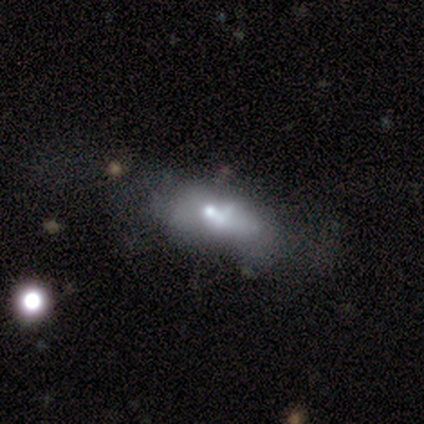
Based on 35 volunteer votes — Smooth or featured: featured or disk — 49% (smooth — 31%)
Edge-on disk: no — 82% (yes — 18%)
Bar: no — 93% (weak — 7%)
Spiral arms: no — 100%
Bulge size: small — 43% (moderate — 21%)
Merging: major disturbance — 50% (none — 25%)